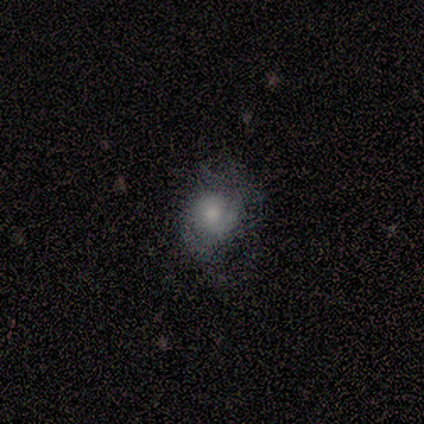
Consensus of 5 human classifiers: This is marginally a smooth galaxy (40%, tied with featured or disk). How rounded: possibly round (50%, tied with in between). Merging: possibly none (50%, tied with minor disturbance).